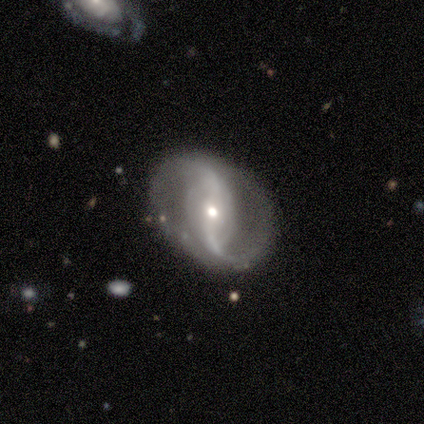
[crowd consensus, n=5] A featured or disk galaxy (100%) with no bar (60%), 2 (100%) loose (80%) spiral arms (100%) and a small central bulge (80%). Merging: none (100%).